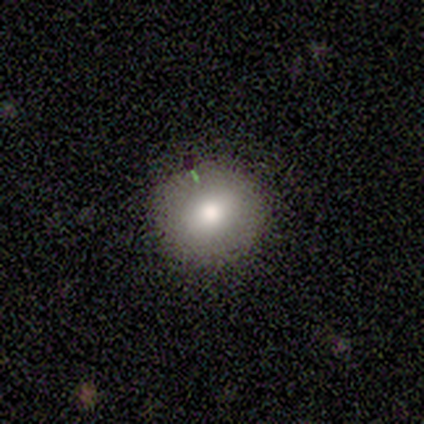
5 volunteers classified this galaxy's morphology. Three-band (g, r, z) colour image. It shows a smooth galaxy with no disk features (60%) that is round (100%). Merging: none (60%).